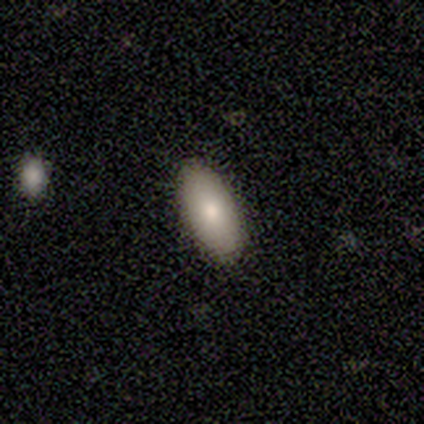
Smooth or featured: smooth — 50% (tied with featured or disk — 50%)
How rounded: in between — 100%
Merging: none — 100%